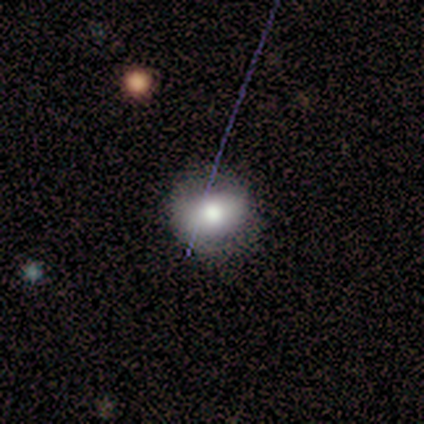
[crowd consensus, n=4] Morphology: type=smooth (50%, tied with featured or disk); roundness=round (50%, tied with in between); merging=none (50%).